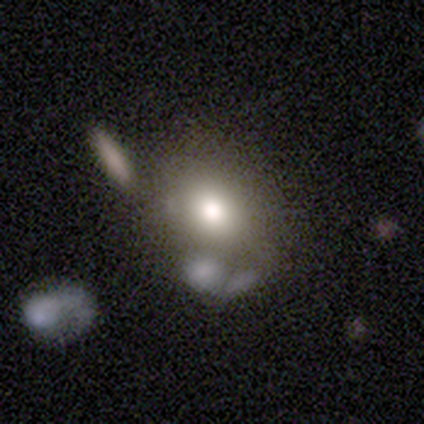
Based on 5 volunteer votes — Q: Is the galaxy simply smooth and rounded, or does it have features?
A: smooth — 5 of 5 (100%).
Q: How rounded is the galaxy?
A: round — 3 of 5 (60%).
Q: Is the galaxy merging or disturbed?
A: none — 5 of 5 (100%).